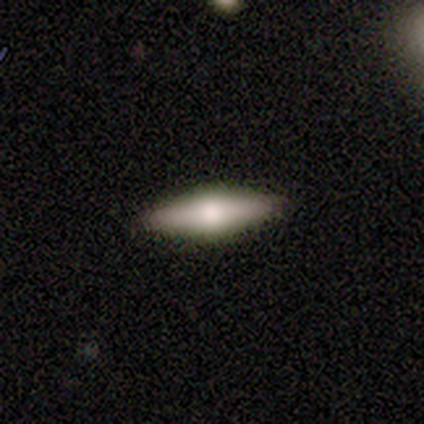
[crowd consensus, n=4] This is likely a featured or disk galaxy (75%). It is clearly viewed edge-on (100%). Edge-on bulge: clearly rounded (100%). Merging: clearly none (100%).